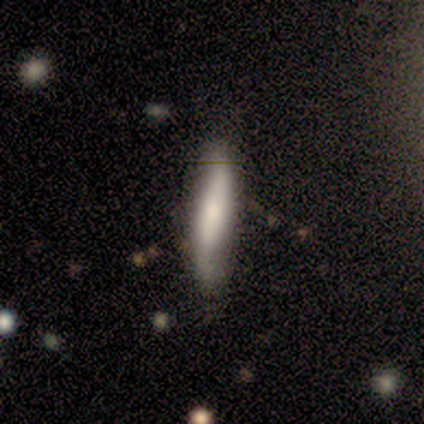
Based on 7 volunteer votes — Volunteers were most divided on "smooth or featured": smooth: 57%, featured or disk: 43%, star or artifact: 0%. More confident: how rounded — cigar-shaped (100%); merging — none (57%).